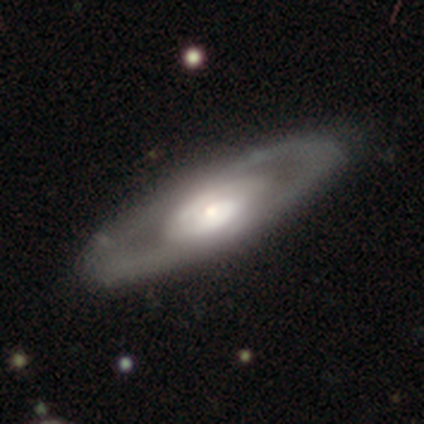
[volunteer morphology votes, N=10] type=featured or disk (90%); edge-on=no (100%); bar=no (67%); spiral arms=no (56%); bulge=small (44%); merging=none (80%).